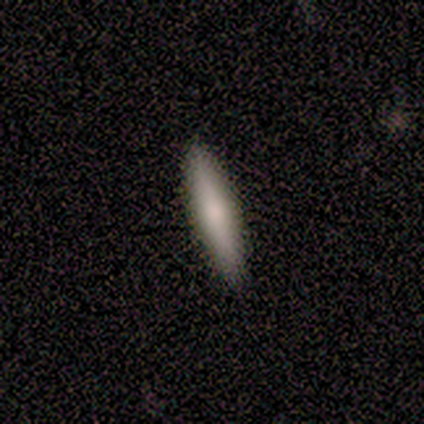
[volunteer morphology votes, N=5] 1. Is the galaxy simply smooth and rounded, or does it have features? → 80% smooth, 20% featured or disk, 0% star or artifact.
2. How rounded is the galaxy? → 75% cigar-shaped, 25% in between, 0% round.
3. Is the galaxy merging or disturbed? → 80% none, 20% minor disturbance, 0% major disturbance, 0% merger.